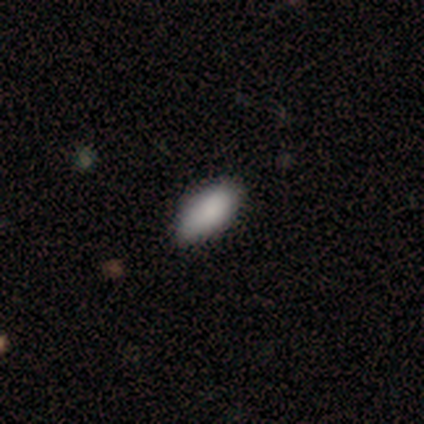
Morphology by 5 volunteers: A smooth galaxy with no disk features (100%) that is in between round and cigar-shaped (100%). Merging: none (100%).